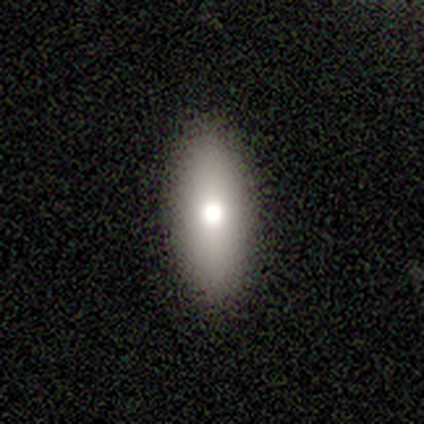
smooth-or-featured: smooth: 80% | featured or disk: 20% | star or artifact: 0%
  how-rounded: in between: 75% | round: 25% | cigar-shaped: 0%
  merging: none: 80% | merger: 20% | minor disturbance: 0% | major disturbance: 0%